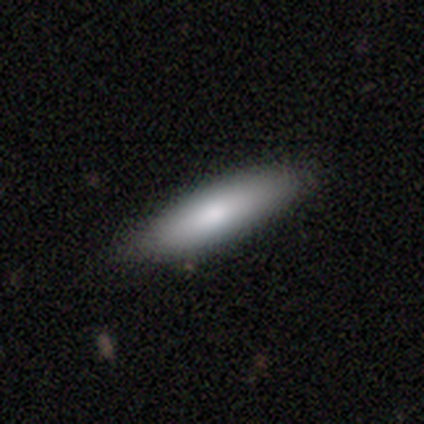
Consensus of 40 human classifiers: Overall: smooth (85%). How rounded: cigar-shaped (65%; in between 35%). Merging: none (79%).